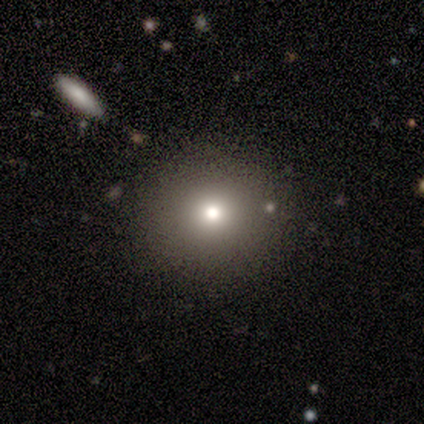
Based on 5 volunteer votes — smooth 100%, featured or disk 0%, star or artifact 0%. Down the decision tree: how rounded — round (80%); merging — none (100%).